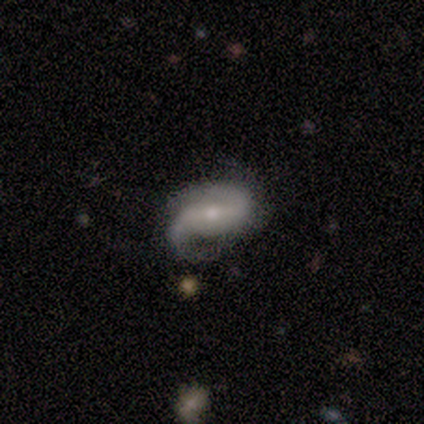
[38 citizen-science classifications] This appears to be a featured or disk galaxy (87%) with a strong bar (56%), 2 (90%) loose (47%) spiral arms (94%) and a small central bulge (72%). Merging: none (62%).